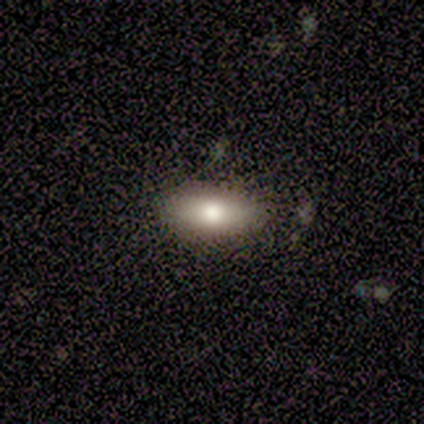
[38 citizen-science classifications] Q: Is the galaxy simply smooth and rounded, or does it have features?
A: smooth — 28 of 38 (74%).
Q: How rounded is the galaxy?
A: in between — 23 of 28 (82%).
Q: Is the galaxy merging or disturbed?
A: none — 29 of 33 (88%).